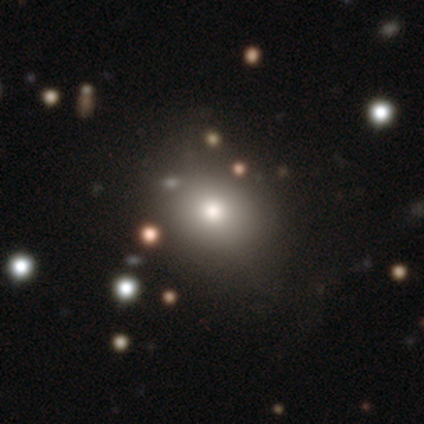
Smooth or featured? smooth (60%)
How rounded? in between (67%)
Merging? none (100%)